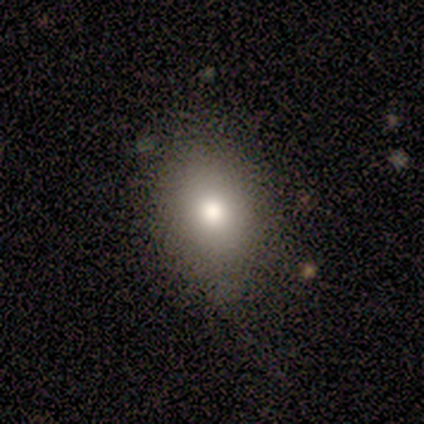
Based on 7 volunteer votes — Smooth or featured? 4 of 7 (57%) said smooth. How rounded? 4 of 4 (100%) said in between. Merging? 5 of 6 (83%) said none.